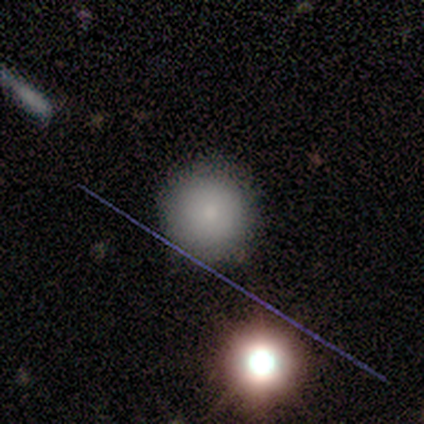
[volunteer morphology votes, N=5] Volunteers were most divided on "smooth or featured": smooth: 80%, star or artifact: 20%, featured or disk: 0%. More confident: how rounded — round (100%); merging — none (100%).